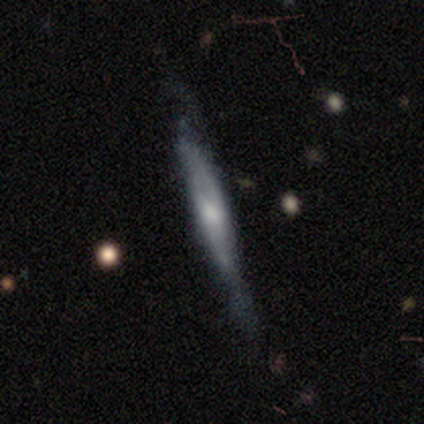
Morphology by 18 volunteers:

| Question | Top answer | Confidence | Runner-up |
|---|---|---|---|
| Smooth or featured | featured or disk | 78% | smooth (22%) |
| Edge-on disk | yes | 79% | no (21%) |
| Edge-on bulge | rounded | 55% | none (45%) |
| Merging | none | 61% | minor disturbance (39%) |